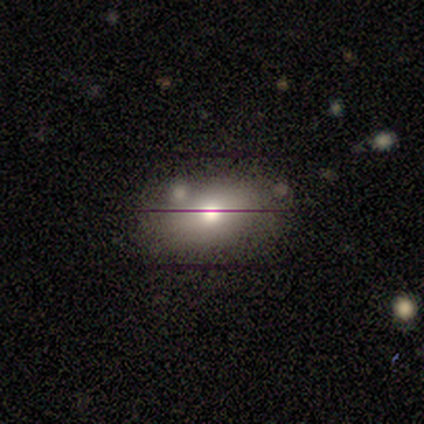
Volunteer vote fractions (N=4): This appears to be a smooth galaxy with no disk features (50%, tied with featured or disk) that is in between round and cigar-shaped (100%). Merging: none (100%).